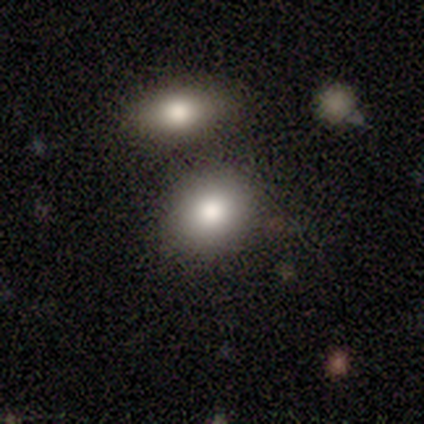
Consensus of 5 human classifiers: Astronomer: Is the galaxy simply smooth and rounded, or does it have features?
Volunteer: smooth — 100%.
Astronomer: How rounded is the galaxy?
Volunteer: in between — 60% (runner-up: round, 40%).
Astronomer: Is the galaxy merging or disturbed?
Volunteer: none — 60%.